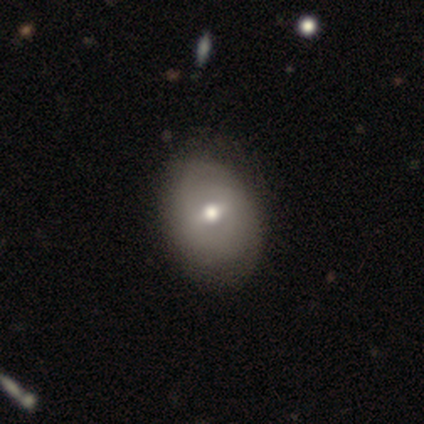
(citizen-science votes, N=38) Smooth or featured? 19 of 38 (50%) said featured or disk. Edge-on disk? 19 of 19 (100%) said no. Bar? 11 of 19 (58%) said weak. Spiral arms? 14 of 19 (74%) said no. Bulge size? 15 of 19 (79%) said moderate. Merging? 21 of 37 (57%) said none.